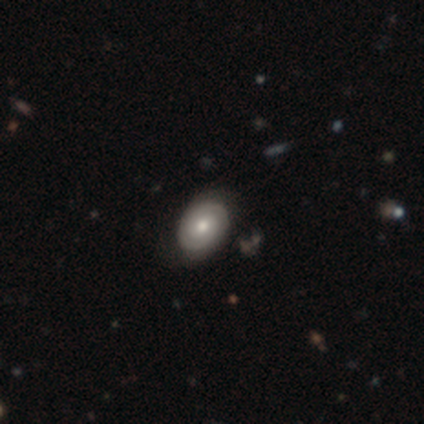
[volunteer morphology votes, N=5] smooth-or-featured: featured or disk: 60% | smooth: 40% | star or artifact: 0%
  disk-edge-on: no: 100% | yes: 0%
    bar: no: 100% | strong: 0% | weak: 0%
    has-spiral-arms: yes: 67% | no: 33%
      spiral-winding: tight: 100% | medium: 0% | loose: 0%
      spiral-arm-count: 2: 100% | 1: 0% | 3: 0% | 4: 0% | more than 4: 0% | can't tell: 0%
    bulge-size: moderate: 67% | small: 33% | dominant: 0% | large: 0% | none: 0%
  merging: none: 80% | minor disturbance: 20% | major disturbance: 0% | merger: 0%